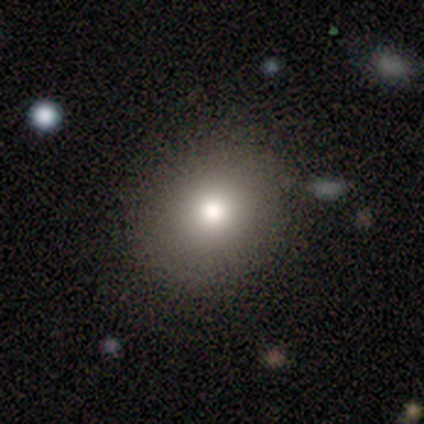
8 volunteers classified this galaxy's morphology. Smooth or featured? 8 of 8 (100%) said smooth. How rounded? 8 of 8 (100%) said round. Merging? 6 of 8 (75%) said none.